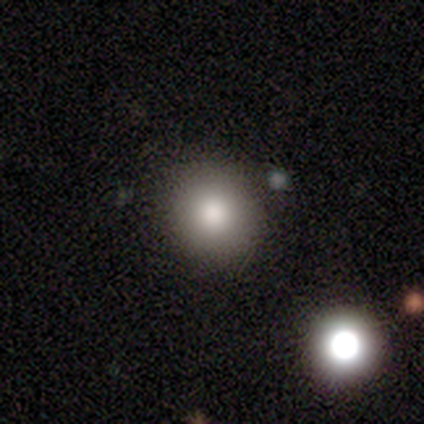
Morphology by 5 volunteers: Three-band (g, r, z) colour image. It shows a smooth galaxy with no disk features (80%) that is round (100%). Merging: none (100%).